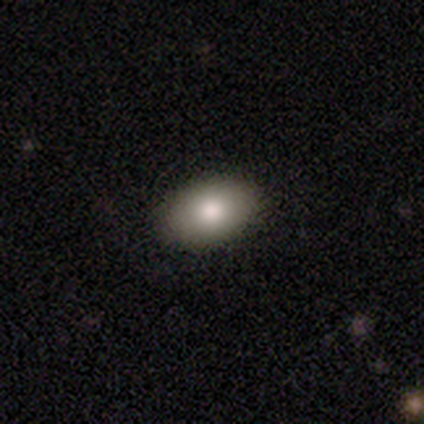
smooth-or-featured: smooth: 100% | featured or disk: 0% | star or artifact: 0%
  how-rounded: in between: 100% | round: 0% | cigar-shaped: 0%
  merging: none: 100% | minor disturbance: 0% | major disturbance: 0% | merger: 0%